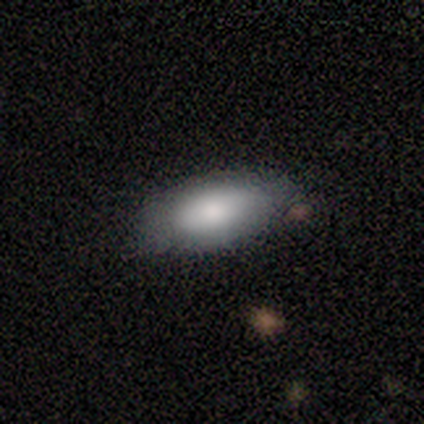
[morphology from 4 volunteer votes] type=smooth (100%); roundness=in between (100%); merging=none (50%, tied with minor disturbance).